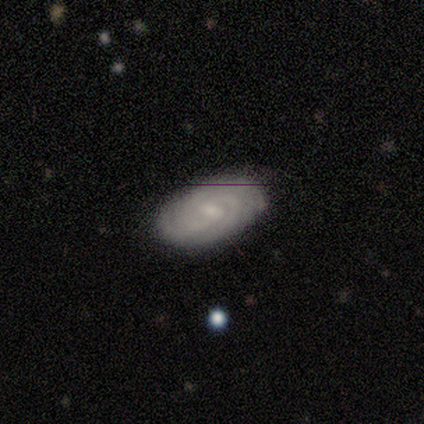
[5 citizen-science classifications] smooth-or-featured: featured or disk: 80% | smooth: 20% | star or artifact: 0%
  disk-edge-on: no: 100% | yes: 0%
    bar: weak: 75% | no: 25% | strong: 0%
    has-spiral-arms: yes: 100% | no: 0%
      spiral-winding: tight: 75% | loose: 25% | medium: 0%
      spiral-arm-count: 3: 50% | 4: 25% | can't tell: 25% | 1: 0% | 2: 0% | more than 4: 0%
    bulge-size: moderate: 50% (tied) | small: 50% (tied) | dominant: 0% | large: 0% | none: 0%
  merging: none: 80% | minor disturbance: 20% | major disturbance: 0% | merger: 0%